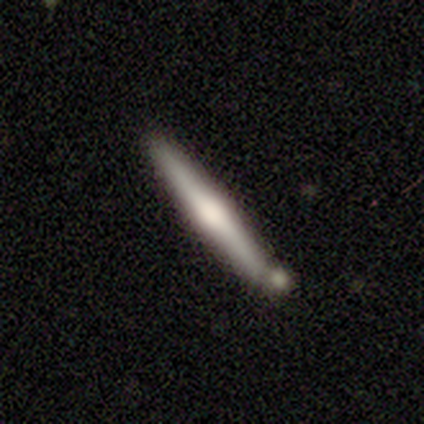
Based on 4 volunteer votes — This is clearly a featured or disk galaxy (100%). It is likely viewed edge-on (75%). Edge-on bulge: clearly rounded (100%). Merging: likely none (75%).